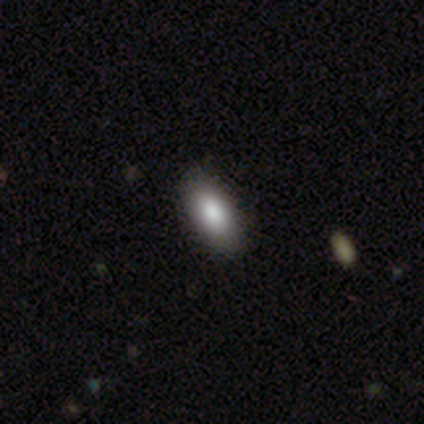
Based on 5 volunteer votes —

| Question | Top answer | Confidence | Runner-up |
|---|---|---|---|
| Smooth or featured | smooth | 80% | star or artifact (20%) |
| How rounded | in between | 75% | cigar-shaped (25%) |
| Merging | none | 100% | — |